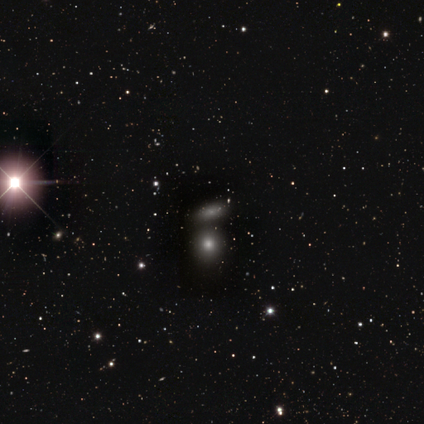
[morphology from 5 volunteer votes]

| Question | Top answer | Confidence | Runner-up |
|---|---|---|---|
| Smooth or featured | star or artifact | 60% | smooth (40%) |